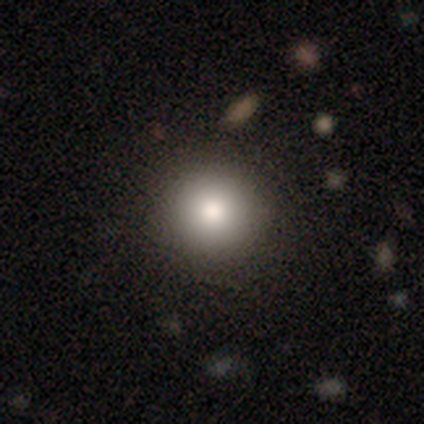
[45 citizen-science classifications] smooth 80%, star or artifact 18%, featured or disk 2%. Down the decision tree: how rounded — round (92%); merging — none (95%).